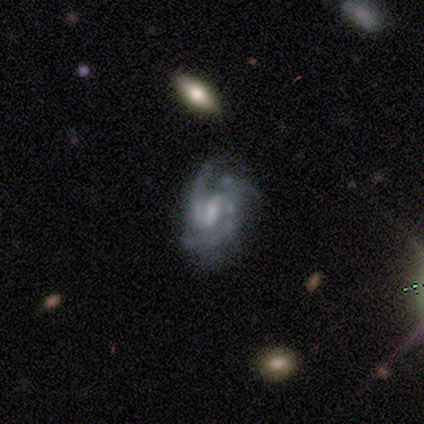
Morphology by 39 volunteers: Q: Smooth or featured?
A: featured or disk (90%); runner-up: smooth (5%)
Q: Edge-on disk?
A: no (97%); runner-up: yes (3%)
Q: Bar?
A: weak (62%); runner-up: strong (26%)
Q: Spiral arms?
A: yes (88%); runner-up: no (12%)
Q: Spiral winding?
A: medium (57%); runner-up: tight (33%)
Q: Spiral arm count?
A: 2 (53%); runner-up: 3 (23%)
Q: Bulge size?
A: moderate (38%); runner-up: none (29%)
Q: Merging?
A: none (54%); runner-up: minor disturbance (32%)